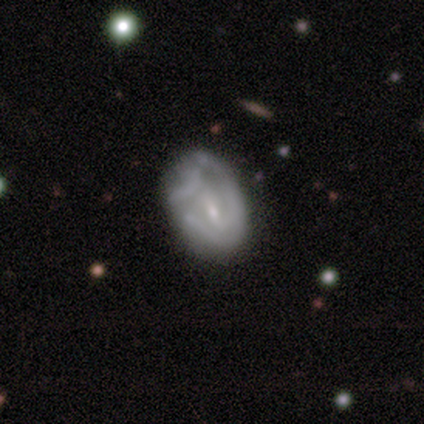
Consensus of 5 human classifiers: Overall: featured or disk (40%, tied with star or artifact). Edge-on disk: no (100%). Bar: weak (100%). Spiral arms: yes (100%). Spiral arm count: can't tell (100%). Spiral winding: medium (50%, tied with loose). Bulge size: small (50%, tied with none). Merging: none (67%; major disturbance 33%).